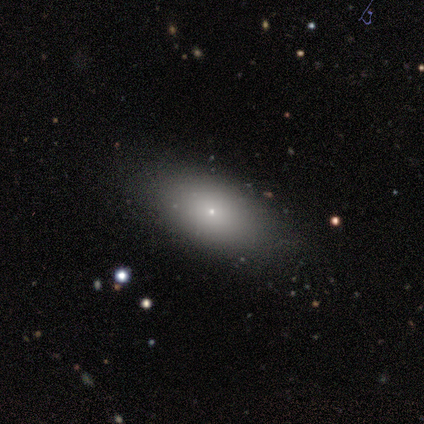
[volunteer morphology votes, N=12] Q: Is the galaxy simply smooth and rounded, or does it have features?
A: smooth — 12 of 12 (100%).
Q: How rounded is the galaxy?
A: in between — 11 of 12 (92%).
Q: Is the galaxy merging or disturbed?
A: none — 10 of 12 (83%).